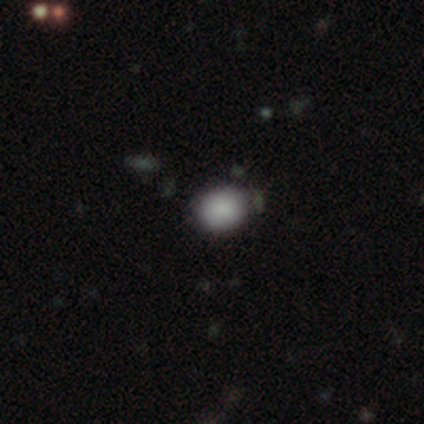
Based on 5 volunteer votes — Smooth or featured?
  - smooth: 80% *
  - star or artifact: 20%
  - featured or disk: 0%
How rounded?
  - round: 100% *
  - in between: 0%
  - cigar-shaped: 0%
Merging?
  - none: 100% *
  - minor disturbance: 0%
  - major disturbance: 0%
  - merger: 0%